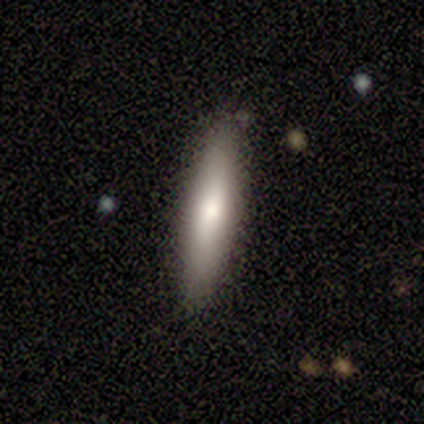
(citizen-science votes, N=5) Overall: featured or disk (60%; smooth 40%). Edge-on disk: yes (100%). Edge-on bulge: rounded (67%; none 33%). Merging: none (100%).